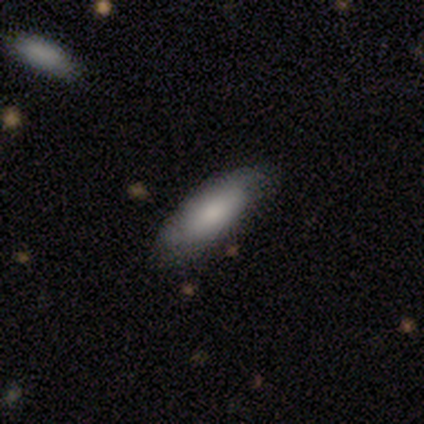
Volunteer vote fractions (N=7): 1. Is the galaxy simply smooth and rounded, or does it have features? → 71% smooth, 29% featured or disk, 0% star or artifact.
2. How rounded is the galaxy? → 80% in between, 20% cigar-shaped, 0% round.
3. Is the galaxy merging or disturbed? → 86% none, 14% major disturbance, 0% minor disturbance, 0% merger.